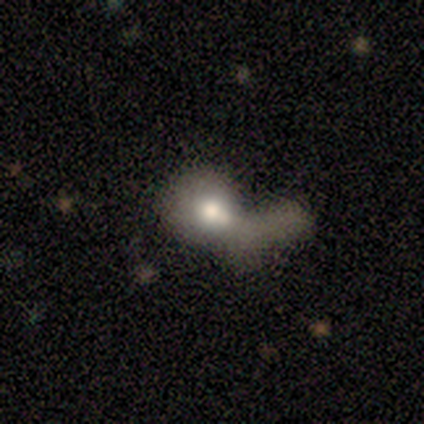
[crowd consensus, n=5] featured or disk 40% (tied), star or artifact 40% (tied), smooth 20%. Down the decision tree: edge-on disk — no (100%); bar — no (100%); spiral arms — no (100%); bulge size — large (50%, tied with moderate); merging — none (33%, tied with major disturbance and merger).